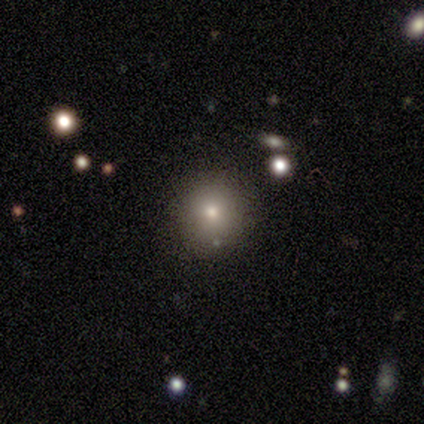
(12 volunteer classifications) Smooth or featured? smooth (67%)
How rounded? round (100%)
Merging? none (100%)